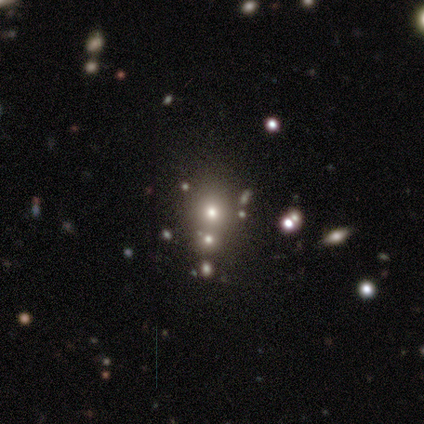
smooth_or_featured: smooth (p=0.46) [alt: star or artifact p=0.44]
how_rounded: round (p=0.67) [alt: in between p=0.28]
merging: none (p=0.50) [alt: merger p=0.41]